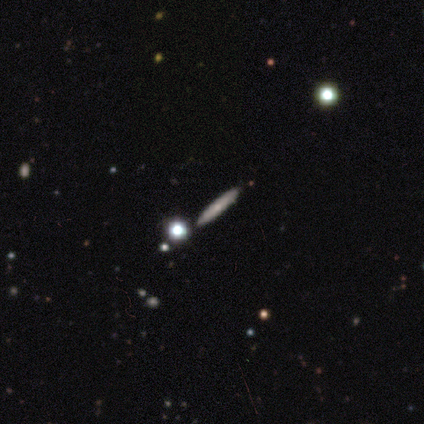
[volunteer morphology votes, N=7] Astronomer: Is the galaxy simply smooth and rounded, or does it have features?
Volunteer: featured or disk — 71%.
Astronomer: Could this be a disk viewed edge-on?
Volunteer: yes — 100%.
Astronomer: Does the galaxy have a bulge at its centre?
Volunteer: none — 60%.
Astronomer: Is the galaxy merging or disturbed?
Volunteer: none — 71%.